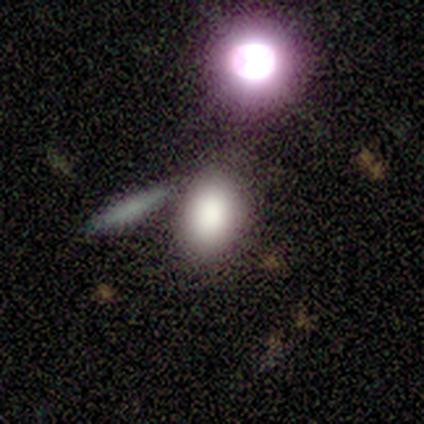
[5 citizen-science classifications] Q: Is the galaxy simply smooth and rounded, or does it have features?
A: featured or disk — 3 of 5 (60%).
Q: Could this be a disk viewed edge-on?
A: yes — 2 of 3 (67%).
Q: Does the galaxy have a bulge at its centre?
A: none — 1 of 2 (50%, tied with rounded).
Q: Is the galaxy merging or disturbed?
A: none — 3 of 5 (60%).